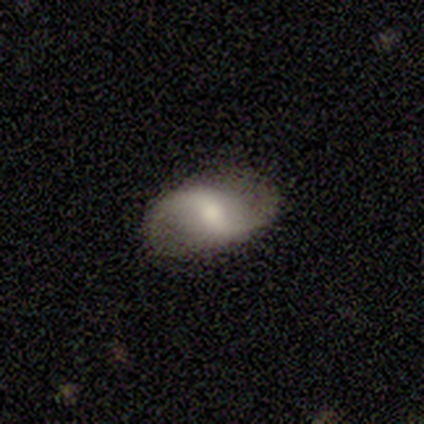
Smooth or featured? featured or disk (86%)
Edge-on disk? no (100%)
Bar? weak (50%)
Spiral arms? yes (100%)
Spiral winding? loose (83%)
Spiral arm count? 2 (100%)
Bulge size? moderate (50%)
Merging? none (71%)